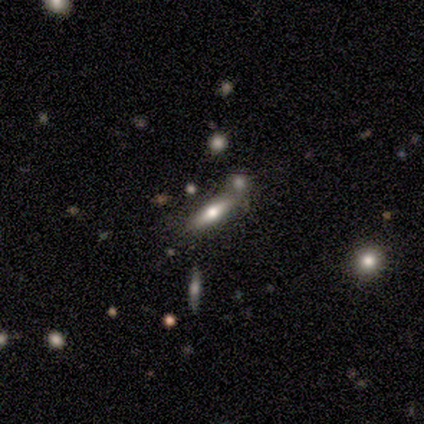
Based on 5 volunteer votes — Volunteers were most divided on "smooth or featured" (2-way tie): smooth: 40%, featured or disk: 40%, star or artifact: 20%. More confident: how rounded — in between (100%); merging — merger (75%).